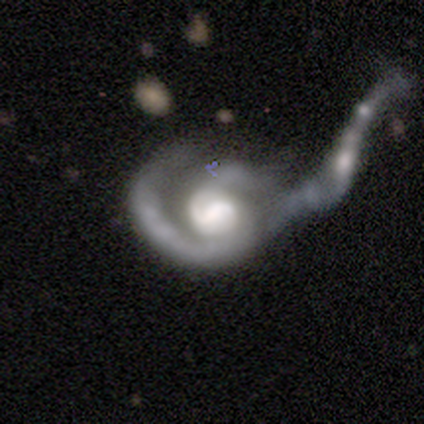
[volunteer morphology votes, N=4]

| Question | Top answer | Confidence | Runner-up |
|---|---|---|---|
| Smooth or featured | featured or disk | 100% | — |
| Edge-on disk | no | 100% | — |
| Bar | strong | 50% | tied: no (50%) |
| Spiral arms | yes | 100% | — |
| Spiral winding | medium | 100% | — |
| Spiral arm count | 1 | 50% | tied: 2 (50%) |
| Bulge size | large | 50% | tied: moderate (50%) |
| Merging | merger | 50% | none (25%) |